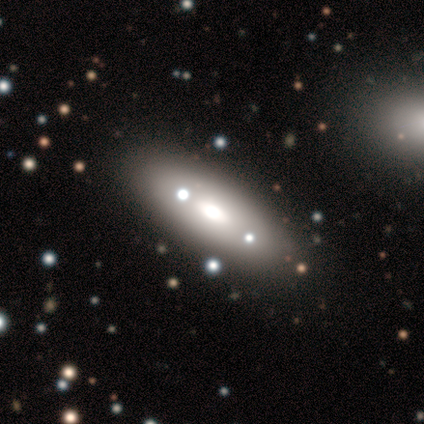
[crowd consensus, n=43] smooth 58%, featured or disk 35%, star or artifact 7%. Down the decision tree: how rounded — in between (84%); merging — none (82%).